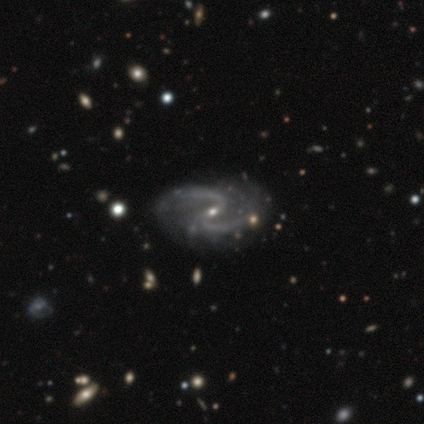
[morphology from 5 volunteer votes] Smooth or featured? 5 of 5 (100%) said featured or disk. Edge-on disk? 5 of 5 (100%) said no. Bar? 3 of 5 (60%) said no. Spiral arms? 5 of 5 (100%) said yes. Spiral winding? 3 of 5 (60%) said medium. Spiral arm count? 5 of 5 (100%) said 2. Bulge size? 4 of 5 (80%) said small. Merging? 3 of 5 (60%) said none.